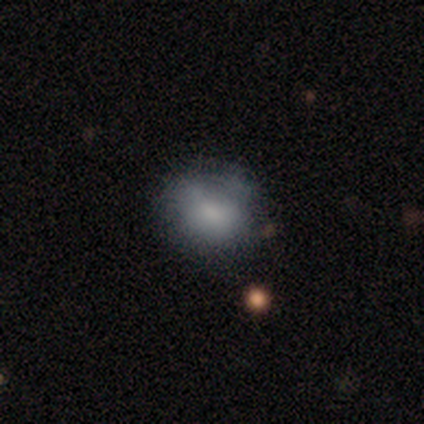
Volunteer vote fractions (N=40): smooth 68%, featured or disk 22%, star or artifact 10%. Down the decision tree: how rounded — round (63%); merging — none (58%).